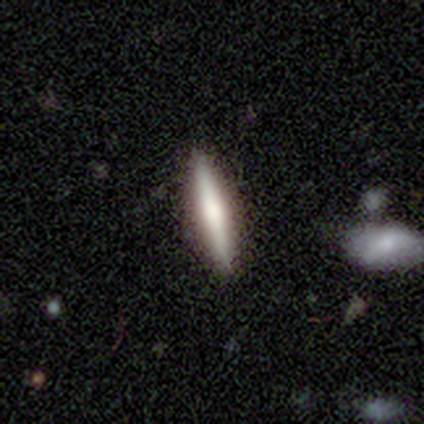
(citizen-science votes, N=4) smooth 100%, featured or disk 0%, star or artifact 0%. Down the decision tree: how rounded — cigar-shaped (100%); merging — none (100%).